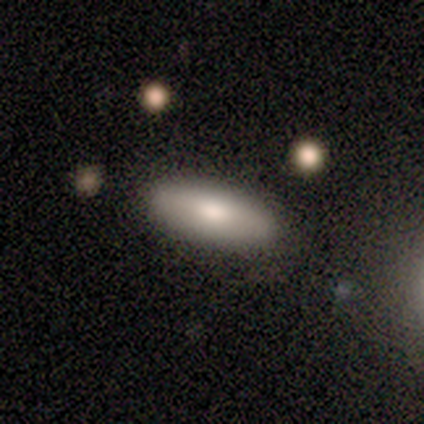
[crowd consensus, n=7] Smooth or featured? smooth (86%)
How rounded? in between (83%)
Merging? none (86%)